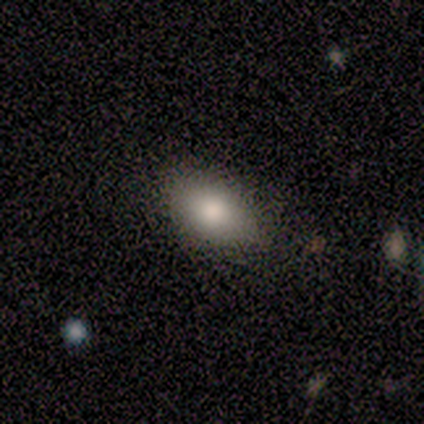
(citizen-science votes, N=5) Overall: smooth (80%). How rounded: in between (100%). Merging: none (100%).